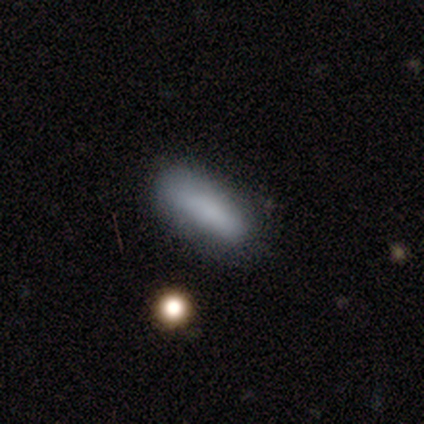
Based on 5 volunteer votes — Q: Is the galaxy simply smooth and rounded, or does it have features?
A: smooth — 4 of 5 (80%).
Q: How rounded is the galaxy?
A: in between — 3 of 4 (75%).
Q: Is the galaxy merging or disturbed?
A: none — 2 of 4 (50%).